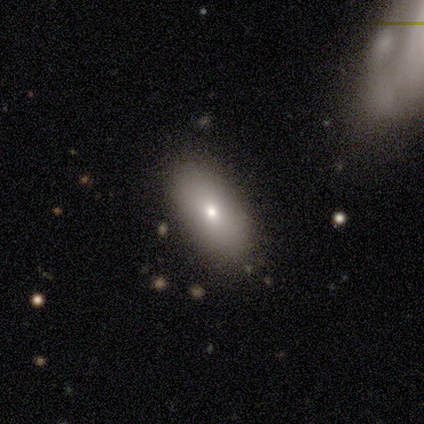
Q: Smooth or featured?
A: smooth (100%)
Q: How rounded?
A: in between (100%)
Q: Merging?
A: none (75%); runner-up: minor disturbance (25%)